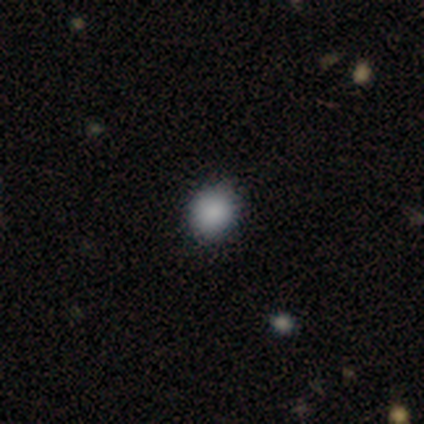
smooth-or-featured: smooth: 80% | star or artifact: 20% | featured or disk: 0%
  how-rounded: round: 75% | in between: 25% | cigar-shaped: 0%
  merging: none: 100% | minor disturbance: 0% | major disturbance: 0% | merger: 0%